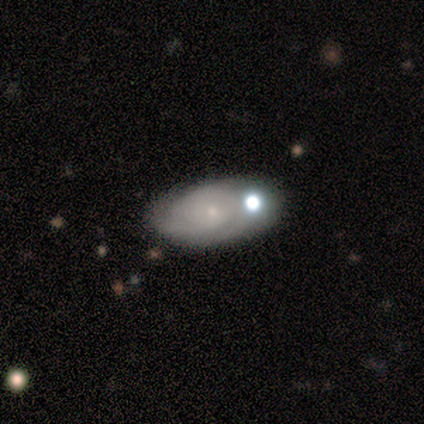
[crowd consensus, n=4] This appears to be a smooth galaxy with no disk features (50%, tied with featured or disk) that is in between round and cigar-shaped (100%). Merging: none (75%).